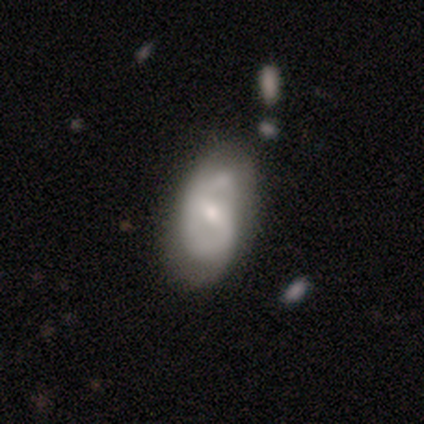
A featured or disk galaxy (68%) with a weak bar (54%), 2 (61%) medium (61%) spiral arms (75%) and a small central bulge (67%). Merging: none (56%).